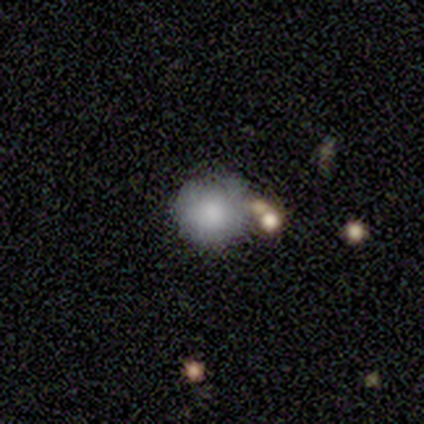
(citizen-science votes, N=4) Volunteers were most divided on "smooth or featured" (2-way tie): smooth: 50%, featured or disk: 50%, star or artifact: 0%; "how rounded" (2-way tie): round: 50%, in between: 50%, cigar-shaped: 0%. More confident: merging — none (75%).